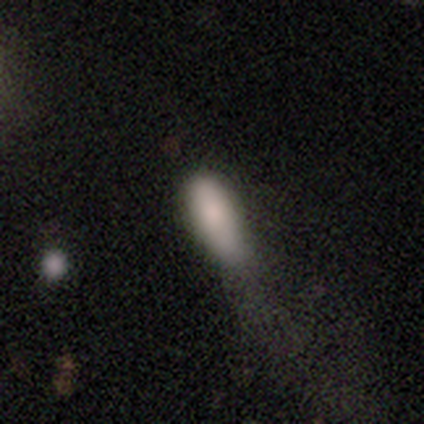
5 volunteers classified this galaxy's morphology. Q: Smooth or featured?
A: smooth (100%)
Q: How rounded?
A: cigar-shaped (60%); runner-up: in between (40%)
Q: Merging?
A: none (40%); runner-up: minor disturbance (20%)